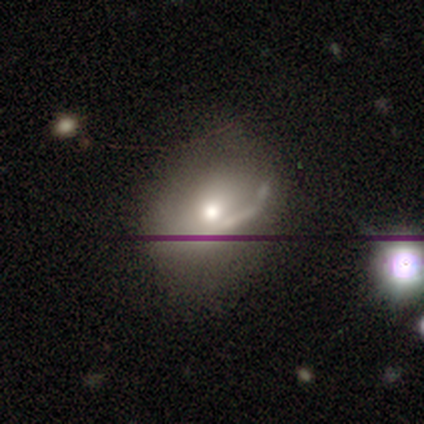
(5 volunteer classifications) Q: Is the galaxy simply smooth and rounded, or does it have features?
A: smooth — 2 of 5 (40%, tied with featured or disk).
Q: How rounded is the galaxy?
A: in between — 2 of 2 (100%).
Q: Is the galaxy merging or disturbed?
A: none — 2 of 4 (50%).